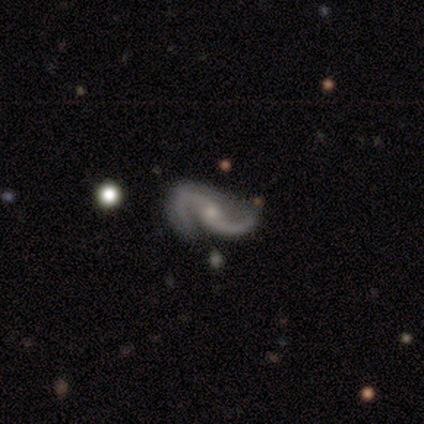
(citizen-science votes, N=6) Smooth or featured? featured or disk (100%)
Edge-on disk? no (83%)
Bar? no (60%)
Spiral arms? yes (100%)
Spiral winding? medium (60%)
Spiral arm count? 2 (80%)
Bulge size? small (80%)
Merging? none (67%)